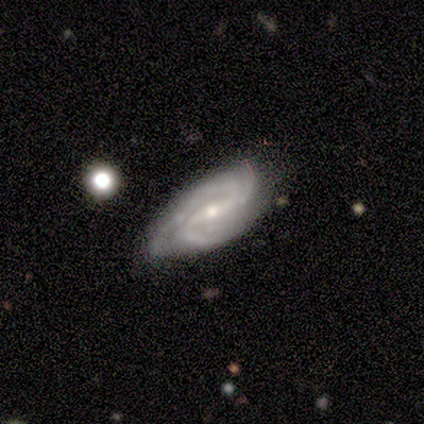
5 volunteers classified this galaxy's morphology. Smooth or featured?
  - featured or disk: 80% *
  - star or artifact: 20%
  - smooth: 0%
Edge-on disk?
  - no: 100% *
  - yes: 0%
Bar?
  - strong: 50% * (tied)
  - weak: 50% * (tied)
  - no: 0%
Spiral arms?
  - yes: 100% *
  - no: 0%
Spiral winding?
  - medium: 75% *
  - tight: 25%
  - loose: 0%
Spiral arm count?
  - 2: 50% * (tied)
  - 3: 50% * (tied)
  - 1: 0%
  - 4: 0%
  - more than 4: 0%
  - can't tell: 0%
Bulge size?
  - moderate: 75% *
  - small: 25%
  - dominant: 0%
  - large: 0%
  - none: 0%
Merging?
  - none: 100% *
  - minor disturbance: 0%
  - major disturbance: 0%
  - merger: 0%